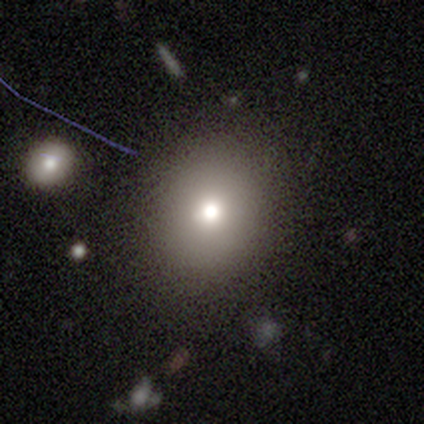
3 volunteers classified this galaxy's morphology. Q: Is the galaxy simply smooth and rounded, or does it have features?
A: smooth — 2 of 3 (67%).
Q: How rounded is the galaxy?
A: round — 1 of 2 (50%, tied with in between).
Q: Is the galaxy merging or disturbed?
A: none — 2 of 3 (67%).